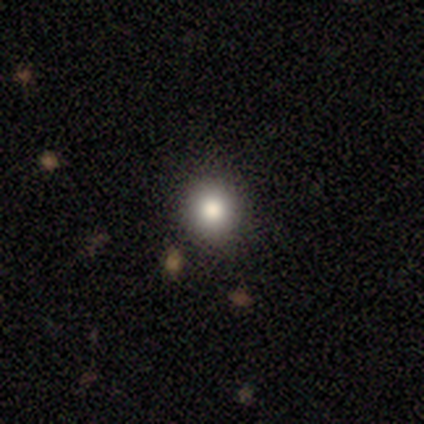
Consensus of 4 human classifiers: A smooth galaxy with no disk features (75%) that is round (100%). Merging: none (67%).